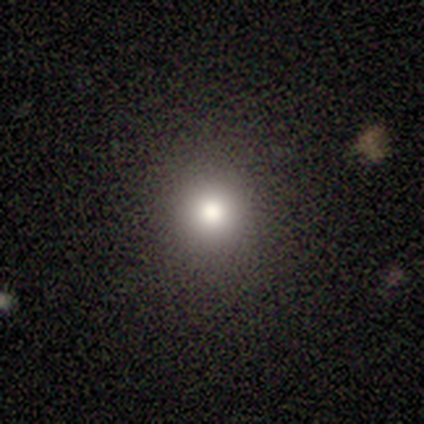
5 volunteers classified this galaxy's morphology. A smooth galaxy with no disk features (100%) that is round (60%). Merging: none (100%).